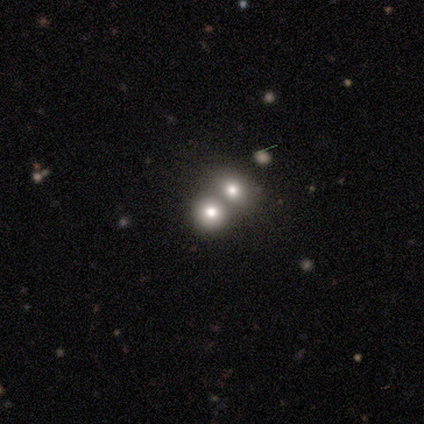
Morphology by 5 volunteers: Q: Smooth or featured?
A: smooth (40%); tied with: star or artifact (40%)
Q: How rounded?
A: round (50%); tied with: in between (50%)
Q: Merging?
A: merger (67%); runner-up: minor disturbance (33%)